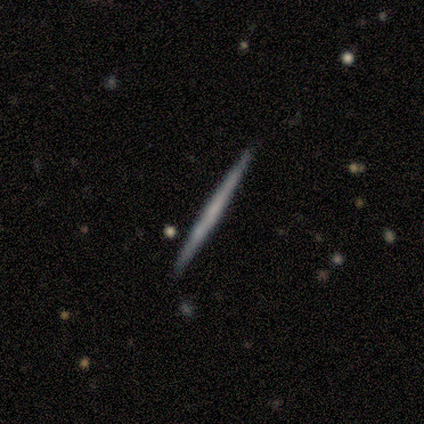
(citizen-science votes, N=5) Morphology: type=smooth (60%); roundness=cigar-shaped (67%); merging=none (100%).